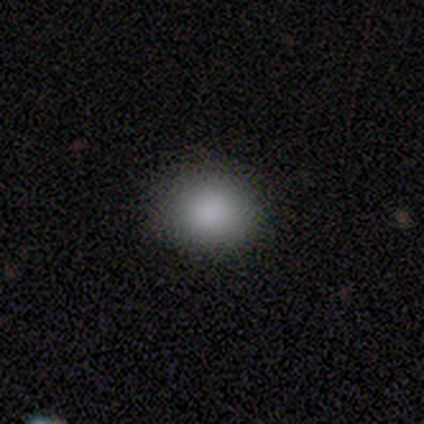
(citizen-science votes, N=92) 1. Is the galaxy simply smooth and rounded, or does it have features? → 83% smooth, 14% star or artifact, 3% featured or disk.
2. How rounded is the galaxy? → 70% round, 30% in between, 0% cigar-shaped.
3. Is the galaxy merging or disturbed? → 90% none, 6% minor disturbance, 3% major disturbance, 1% merger.